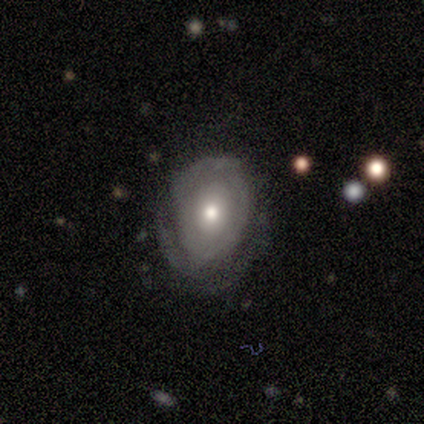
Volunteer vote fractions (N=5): Smooth or featured?
  - featured or disk: 60% *
  - smooth: 40%
  - star or artifact: 0%
Edge-on disk?
  - no: 100% *
  - yes: 0%
Bar?
  - no: 100% *
  - strong: 0%
  - weak: 0%
Spiral arms?
  - yes: 67% *
  - no: 33%
Spiral winding?
  - tight: 100% *
  - medium: 0%
  - loose: 0%
Spiral arm count?
  - 2: 50% * (tied)
  - can't tell: 50% * (tied)
  - 1: 0%
  - 3: 0%
  - 4: 0%
  - more than 4: 0%
Bulge size?
  - moderate: 67% *
  - large: 33%
  - dominant: 0%
  - small: 0%
  - none: 0%
Merging?
  - minor disturbance: 60% *
  - none: 20%
  - major disturbance: 20%
  - merger: 0%